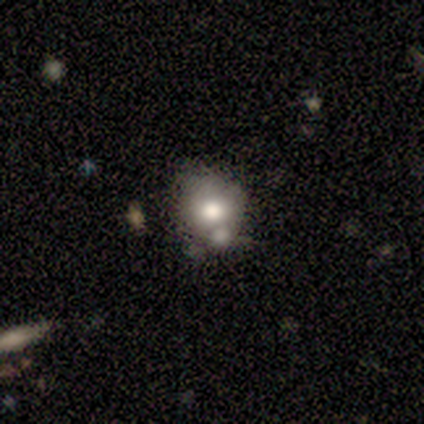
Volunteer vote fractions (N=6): Smooth or featured: smooth — 100%
How rounded: round — 67% (in between — 33%)
Merging: none — 50% (merger — 33%)